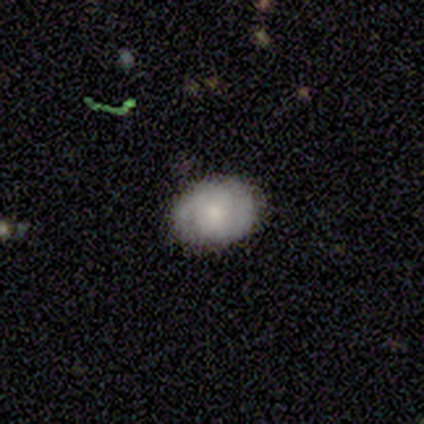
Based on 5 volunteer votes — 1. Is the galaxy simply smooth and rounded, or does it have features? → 40% smooth (tied), 40% featured or disk (tied), 20% star or artifact.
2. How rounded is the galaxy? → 100% round, 0% in between, 0% cigar-shaped.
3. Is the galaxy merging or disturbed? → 50% none (tied), 50% minor disturbance (tied), 0% major disturbance, 0% merger.